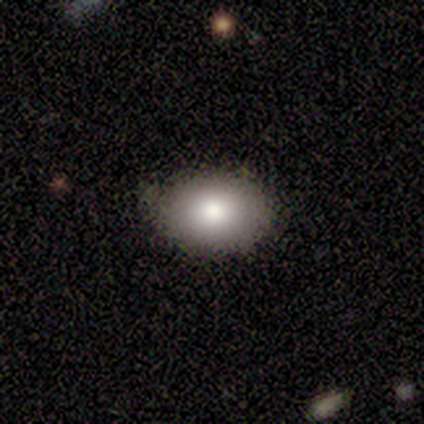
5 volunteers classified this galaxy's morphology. Smooth or featured?
  - smooth: 80% *
  - star or artifact: 20%
  - featured or disk: 0%
How rounded?
  - round: 50% * (tied)
  - in between: 50% * (tied)
  - cigar-shaped: 0%
Merging?
  - none: 75% *
  - minor disturbance: 25%
  - major disturbance: 0%
  - merger: 0%